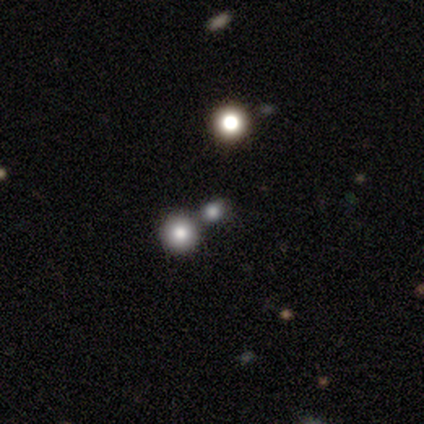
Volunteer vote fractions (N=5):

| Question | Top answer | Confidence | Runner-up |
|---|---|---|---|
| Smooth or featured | smooth | 40% | tied: star or artifact (40%) |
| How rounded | round | 100% | — |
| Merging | none | 33% | tied: minor disturbance (33%), merger (33%) |